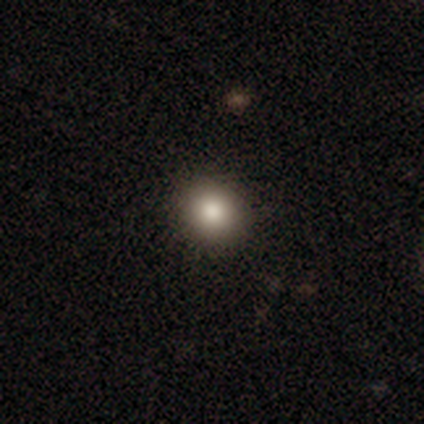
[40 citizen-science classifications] A smooth galaxy with no disk features (78%) that is round (81%). Merging: none (94%).